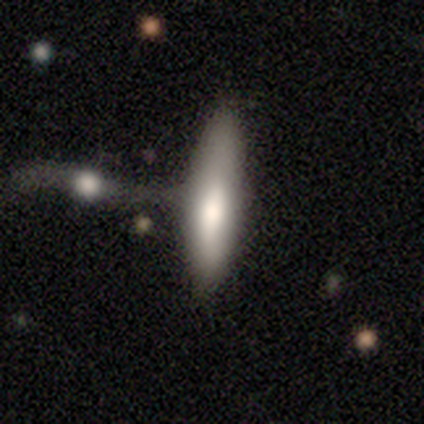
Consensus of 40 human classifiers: A smooth galaxy with no disk features (80%) that is cigar-shaped (69%).

Vote fractions:
- Smooth or featured? smooth: 80% / featured or disk: 20% / star or artifact: 0%
- How rounded? cigar-shaped: 69% / in between: 28% / round: 3%
- Merging? merger: 32% / none: 25% / major disturbance: 12% / minor disturbance: 10%